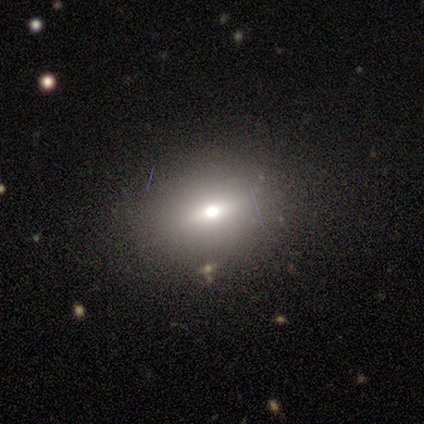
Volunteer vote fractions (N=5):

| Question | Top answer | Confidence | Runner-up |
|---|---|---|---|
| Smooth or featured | smooth | 100% | — |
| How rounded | in between | 80% | round (20%) |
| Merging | none | 100% | — |